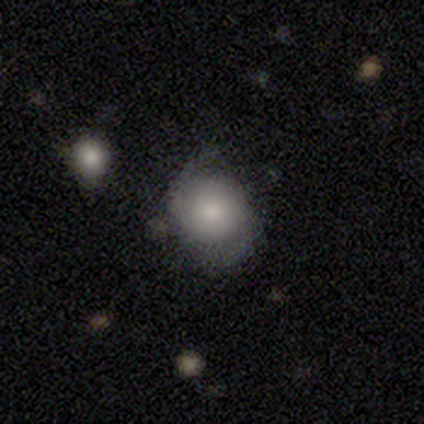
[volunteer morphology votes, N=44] Smooth or featured: smooth — 61% (featured or disk — 27%)
How rounded: round — 85% (in between — 15%)
Merging: none — 59% (minor disturbance — 28%)